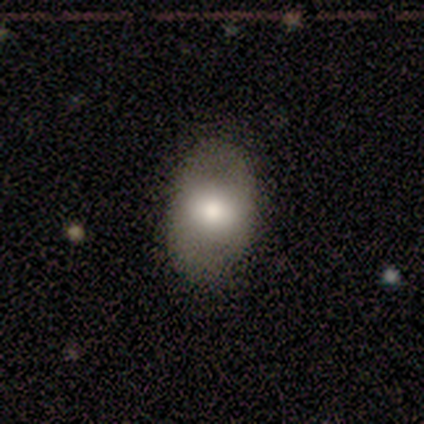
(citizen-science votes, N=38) Smooth or featured?
  - smooth: 66% *
  - featured or disk: 26%
  - star or artifact: 8%
How rounded?
  - in between: 88% *
  - round: 12%
  - cigar-shaped: 0%
Merging?
  - none: 83% *
  - minor disturbance: 14%
  - major disturbance: 3%
  - merger: 0%